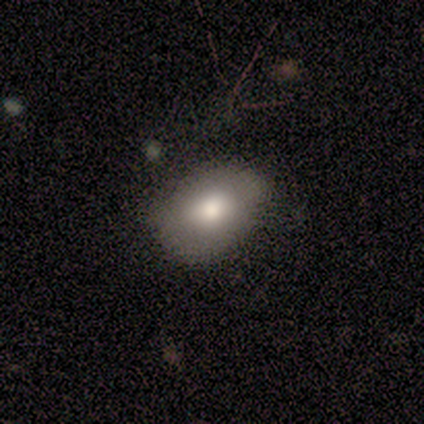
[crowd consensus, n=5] Smooth or featured?
  - smooth: 80% *
  - star or artifact: 20%
  - featured or disk: 0%
How rounded?
  - in between: 75% *
  - round: 25%
  - cigar-shaped: 0%
Merging?
  - none: 75% *
  - minor disturbance: 25%
  - major disturbance: 0%
  - merger: 0%